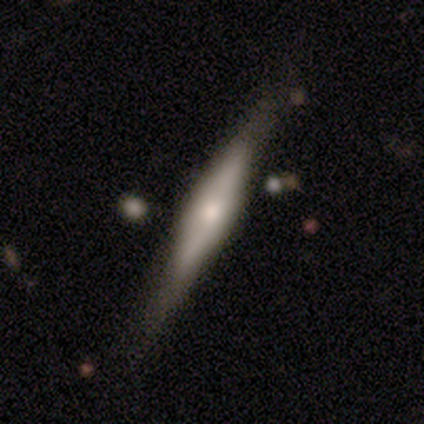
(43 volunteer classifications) Volunteers were most divided on "smooth or featured": featured or disk: 58%, smooth: 37%, star or artifact: 5%. More confident: edge-on disk — yes (92%); edge-on bulge — rounded (78%); merging — none (68%).